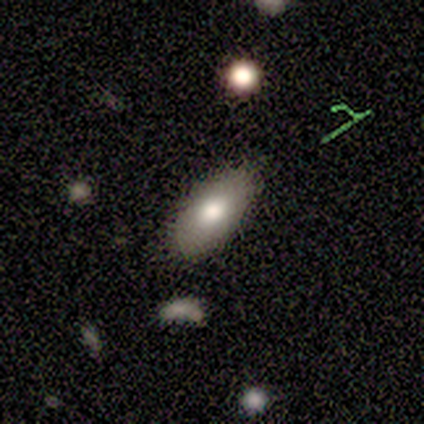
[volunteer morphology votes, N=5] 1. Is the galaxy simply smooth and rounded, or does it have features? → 60% smooth, 40% featured or disk, 0% star or artifact.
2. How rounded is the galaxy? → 100% in between, 0% round, 0% cigar-shaped.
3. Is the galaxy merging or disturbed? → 80% none, 20% minor disturbance, 0% major disturbance, 0% merger.